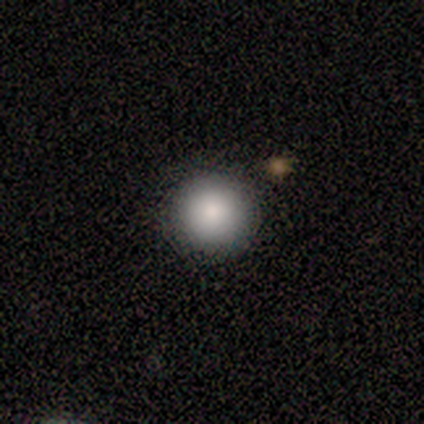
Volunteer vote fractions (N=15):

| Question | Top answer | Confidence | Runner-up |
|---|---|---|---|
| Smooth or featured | smooth | 73% | star or artifact (20%) |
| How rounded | round | 100% | — |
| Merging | none | 100% | — |